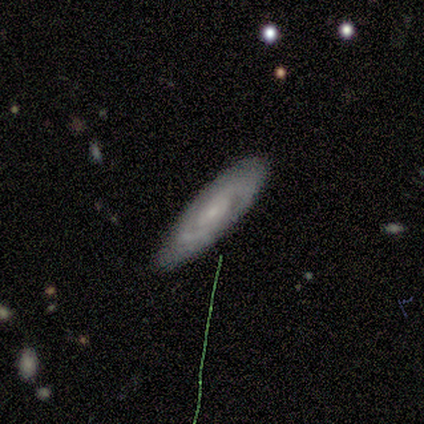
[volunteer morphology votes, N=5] A featured or disk galaxy (100%) with no bar (80%), tight (100%) spiral arms (80%) and a small central bulge (60%).

Vote fractions:
- Smooth or featured? featured or disk: 100% / smooth: 0% / star or artifact: 0%
- Edge-on disk? no: 100% / yes: 0%
- Bar? no: 80% / weak: 20% / strong: 0%
- Spiral arms? yes: 80% / no: 20%
- Spiral winding? tight: 100% / medium: 0% / loose: 0%
- Spiral arm count? can't tell: 75% / 2: 25% / 1: 0% / 3: 0% / 4: 0% / more than 4: 0%
- Bulge size? small: 60% / moderate: 20% / none: 20% / dominant: 0% / large: 0%
- Merging? none: 100% / minor disturbance: 0% / major disturbance: 0% / merger: 0%